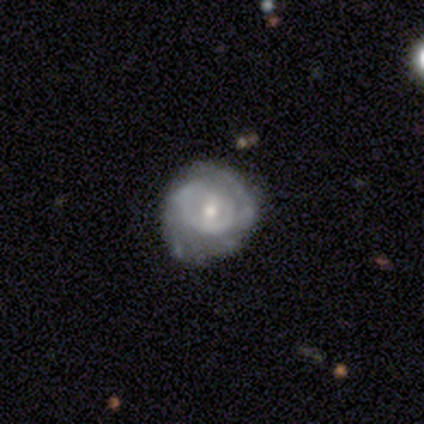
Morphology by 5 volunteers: This appears to be a featured or disk galaxy (100%) with no bar (60%), 2 (40%, tied with can't tell) medium (60%) spiral arms (100%) and a moderate central bulge (60%). Merging: minor disturbance (60%).